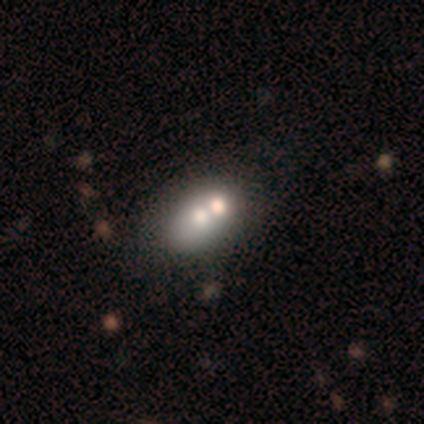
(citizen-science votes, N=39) Smooth or featured? smooth (64%)
How rounded? in between (88%)
Merging? none (49%, tied with merger)